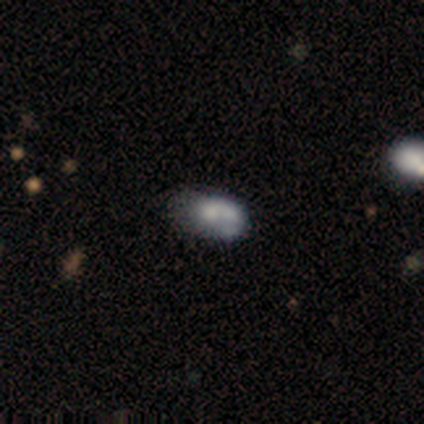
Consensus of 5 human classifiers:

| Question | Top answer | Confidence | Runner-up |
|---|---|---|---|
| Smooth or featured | smooth | 40% | tied: featured or disk (40%) |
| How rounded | in between | 100% | — |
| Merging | merger | 75% | minor disturbance (25%) |